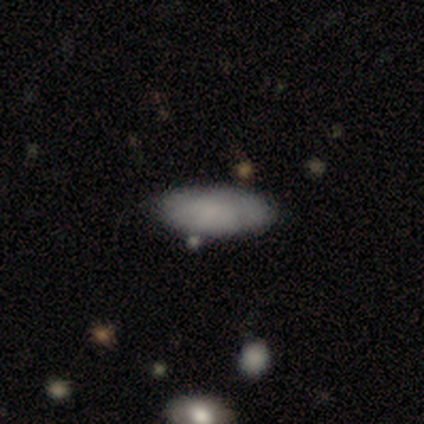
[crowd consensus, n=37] Q: Smooth or featured?
A: smooth (78%); runner-up: featured or disk (16%)
Q: How rounded?
A: in between (90%); runner-up: cigar-shaped (10%)
Q: Merging?
A: none (66%); runner-up: minor disturbance (31%)